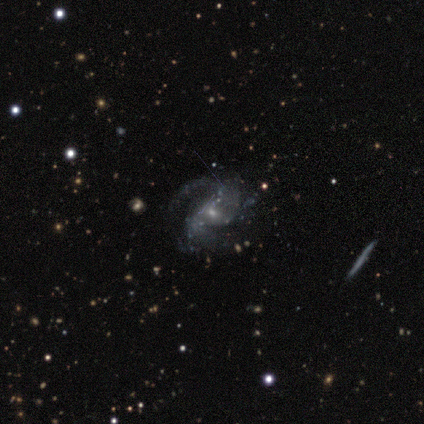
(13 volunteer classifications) Q: Smooth or featured?
A: featured or disk (92%); runner-up: star or artifact (8%)
Q: Edge-on disk?
A: no (100%)
Q: Bar?
A: no (58%); runner-up: weak (25%)
Q: Spiral arms?
A: yes (100%)
Q: Spiral winding?
A: loose (75%); runner-up: medium (17%)
Q: Spiral arm count?
A: 2 (50%); runner-up: can't tell (25%)
Q: Bulge size?
A: small (58%); runner-up: moderate (25%)
Q: Merging?
A: none (67%); runner-up: major disturbance (25%)